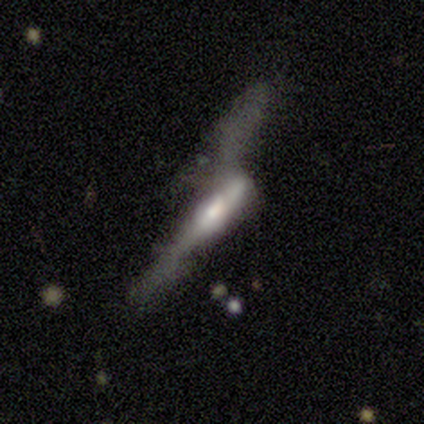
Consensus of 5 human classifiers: smooth-or-featured: featured or disk: 60% | smooth: 40% | star or artifact: 0%
  disk-edge-on: no: 67% | yes: 33%
    bar: no: 100% | strong: 0% | weak: 0%
    has-spiral-arms: no: 100% | yes: 0%
    bulge-size: moderate: 50% (tied) | none: 50% (tied) | dominant: 0% | large: 0% | small: 0%
  merging: major disturbance: 60% | merger: 40% | none: 0% | minor disturbance: 0%